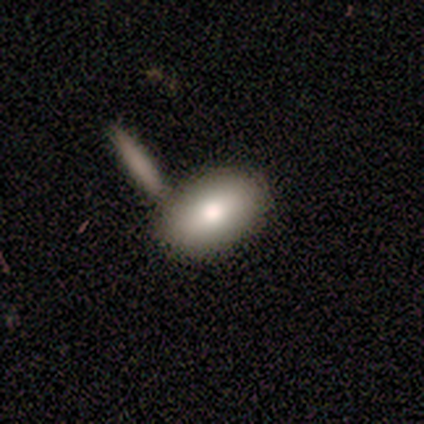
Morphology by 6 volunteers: Smooth or featured? smooth (83%)
How rounded? in between (100%)
Merging? none (50%, tied with merger)